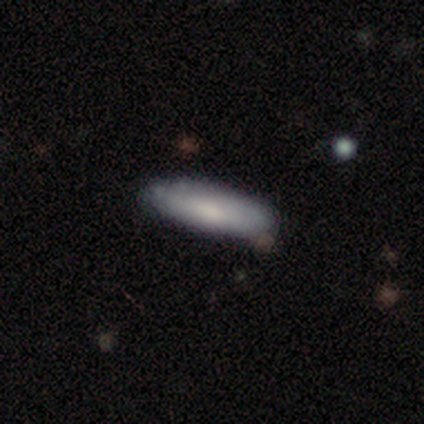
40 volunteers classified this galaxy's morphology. Q: Smooth or featured?
A: smooth (82%); runner-up: featured or disk (12%)
Q: How rounded?
A: cigar-shaped (52%); runner-up: in between (45%)
Q: Merging?
A: none (84%); runner-up: minor disturbance (13%)